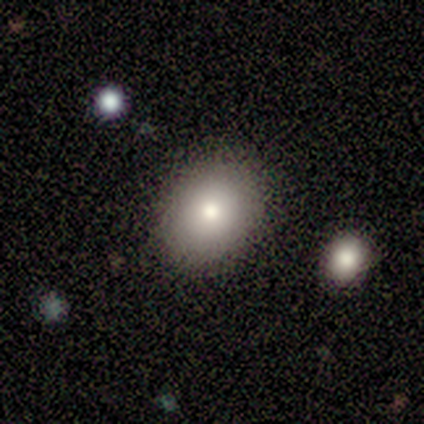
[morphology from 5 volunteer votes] This appears to be a smooth galaxy with no disk features (80%) that is in between round and cigar-shaped (100%). Merging: none (100%).